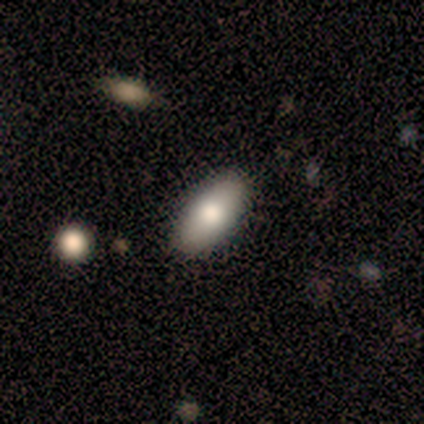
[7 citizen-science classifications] Smooth or featured: smooth — 71% (featured or disk — 14%)
How rounded: in between — 100%
Merging: none — 67% (minor disturbance — 33%)